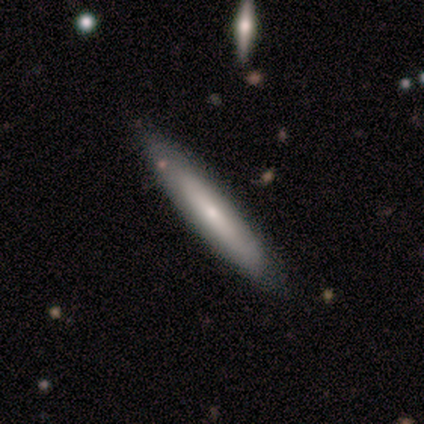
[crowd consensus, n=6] Q: Smooth or featured?
A: smooth (100%)
Q: How rounded?
A: cigar-shaped (100%)
Q: Merging?
A: none (100%)